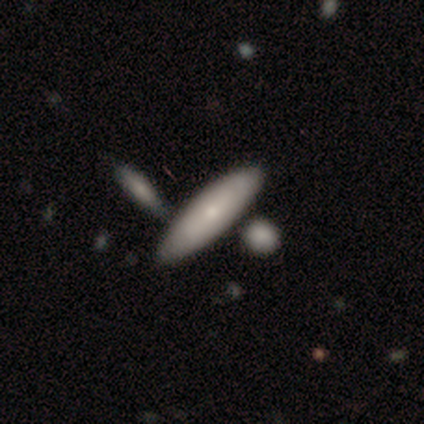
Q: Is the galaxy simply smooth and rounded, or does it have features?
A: smooth — 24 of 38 (63%).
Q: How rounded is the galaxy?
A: cigar-shaped — 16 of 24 (67%).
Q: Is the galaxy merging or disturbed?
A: none — 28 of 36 (78%).